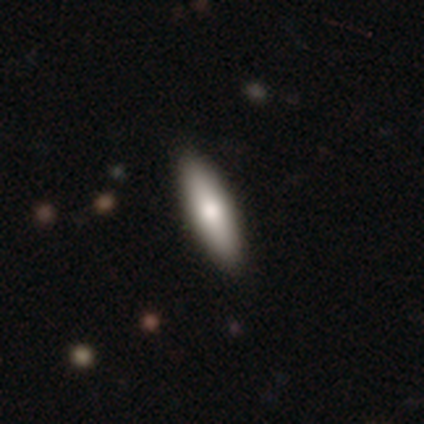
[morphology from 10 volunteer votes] smooth-or-featured: smooth: 80% | featured or disk: 20% | star or artifact: 0%
  how-rounded: in between: 50% (tied) | cigar-shaped: 50% (tied) | round: 0%
  merging: none: 90% | minor disturbance: 10% | major disturbance: 0% | merger: 0%